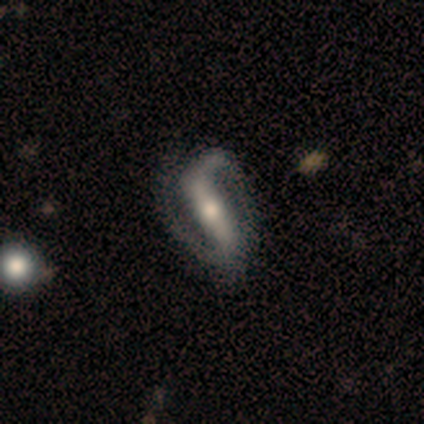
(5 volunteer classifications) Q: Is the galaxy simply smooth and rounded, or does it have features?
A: featured or disk — 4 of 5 (80%).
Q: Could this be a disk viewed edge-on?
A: no — 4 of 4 (100%).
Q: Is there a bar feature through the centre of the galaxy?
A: strong — 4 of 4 (100%).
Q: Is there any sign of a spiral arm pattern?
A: yes — 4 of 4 (100%).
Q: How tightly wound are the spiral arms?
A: tight — 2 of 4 (50%, tied with loose).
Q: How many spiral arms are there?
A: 2 — 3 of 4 (75%).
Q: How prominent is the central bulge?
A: moderate — 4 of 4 (100%).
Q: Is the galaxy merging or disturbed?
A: none — 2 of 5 (40%, tied with minor disturbance).